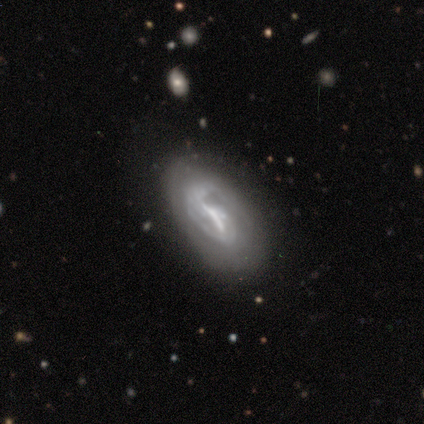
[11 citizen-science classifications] This is clearly a featured or disk galaxy (91%). It is clearly not viewed edge-on (100%). Bar: likely strong (60%). Spiral arm pattern: likely yes (60%). Spiral arm count: possibly can't tell (50%). Spiral winding: possibly tight (50%). Central bulge: marginally moderate (30%, tied with small and none). Merging: likely none (73%).